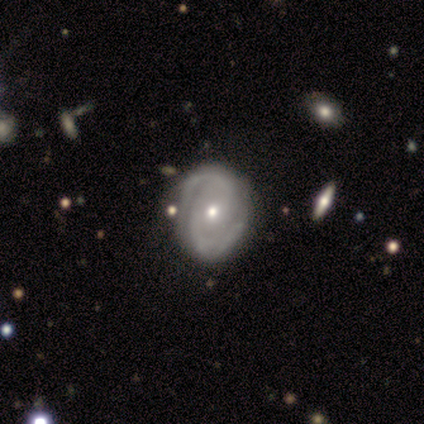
Smooth or featured? featured or disk (80%)
Edge-on disk? no (100%)
Bar? no (100%)
Spiral arms? yes (100%)
Spiral winding? medium (75%)
Spiral arm count? 2 (100%)
Bulge size? small (75%)
Merging? none (80%)